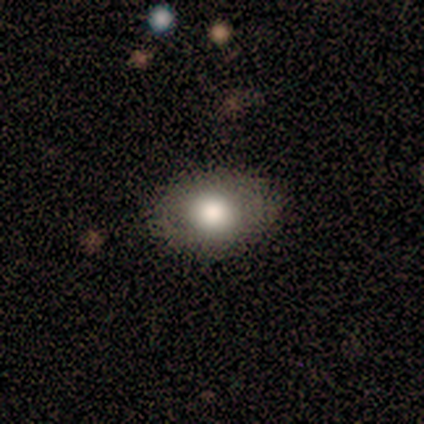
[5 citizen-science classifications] smooth 100%, featured or disk 0%, star or artifact 0%. Down the decision tree: how rounded — round (60%); merging — none (80%).